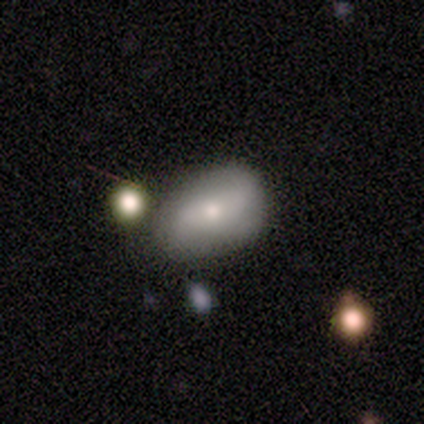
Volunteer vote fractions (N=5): Morphology: type=smooth (80%); roundness=in between (75%); merging=none (40%, tied with minor disturbance).